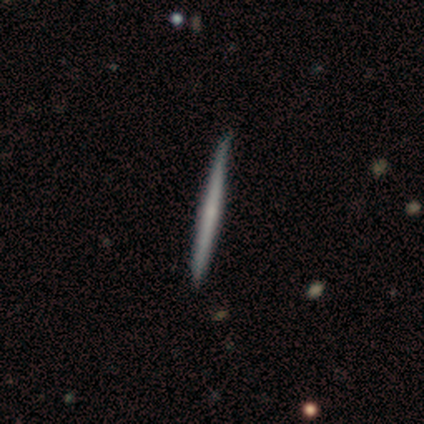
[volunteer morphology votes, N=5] Q: Smooth or featured?
A: smooth (80%); runner-up: featured or disk (20%)
Q: How rounded?
A: cigar-shaped (100%)
Q: Merging?
A: none (60%); runner-up: minor disturbance (40%)